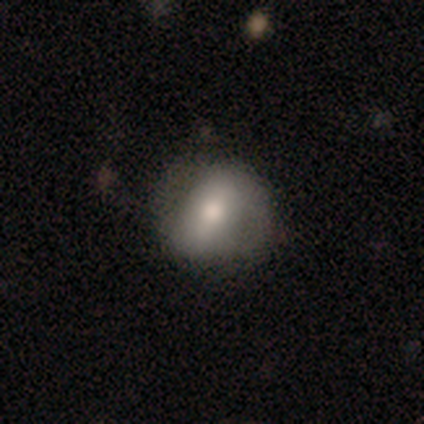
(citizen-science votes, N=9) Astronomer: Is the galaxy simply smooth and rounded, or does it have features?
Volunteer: smooth — 56% (runner-up: featured or disk, 44%).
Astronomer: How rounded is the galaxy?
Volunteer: round — 60% (runner-up: in between, 40%).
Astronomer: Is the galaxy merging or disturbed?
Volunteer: none — 89%.